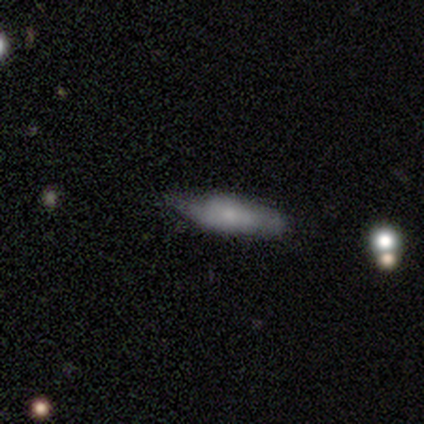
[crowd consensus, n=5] This is clearly a smooth galaxy (80%). How rounded: possibly in between (50%, tied with cigar-shaped). Merging: clearly none (80%).